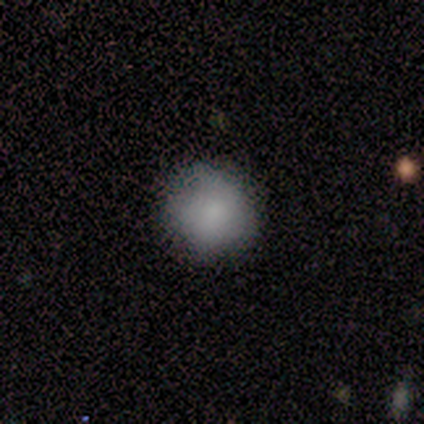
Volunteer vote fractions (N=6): smooth-or-featured: smooth: 83% | featured or disk: 17% | star or artifact: 0%
  how-rounded: round: 100% | in between: 0% | cigar-shaped: 0%
  merging: none: 67% | minor disturbance: 17% | major disturbance: 17% | merger: 0%